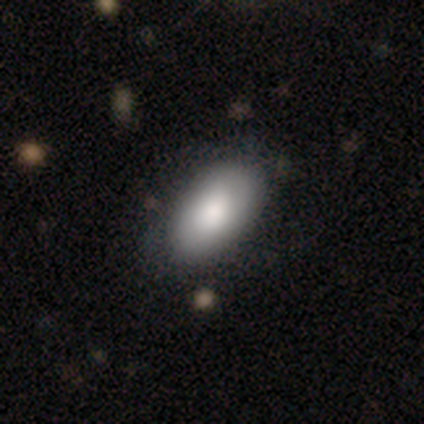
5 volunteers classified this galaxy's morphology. Smooth or featured? smooth (60%)
How rounded? in between (100%)
Merging? none (60%)